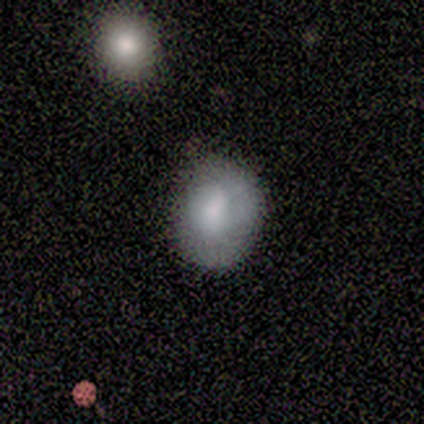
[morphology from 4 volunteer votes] smooth 100%, featured or disk 0%, star or artifact 0%. Down the decision tree: how rounded — round (50%, tied with in between); merging — none (50%, tied with minor disturbance).